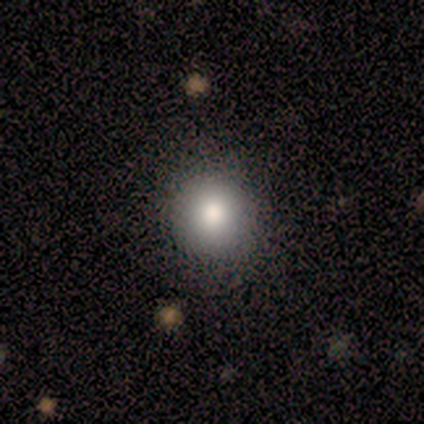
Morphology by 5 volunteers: Overall: smooth (80%). How rounded: round (100%). Merging: none (100%).